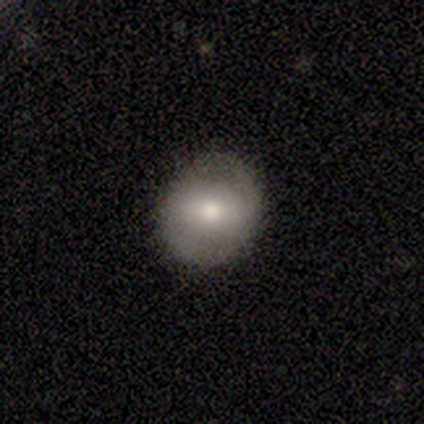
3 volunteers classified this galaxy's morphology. Overall: smooth (100%). How rounded: round (100%). Merging: none (100%).